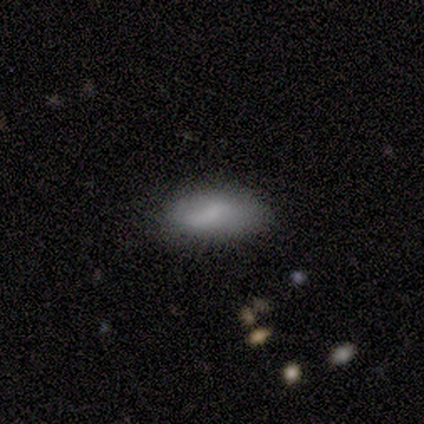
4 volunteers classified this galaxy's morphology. Volunteers were most divided on "merging" (2-way tie): none: 50%, minor disturbance: 50%, major disturbance: 0%, merger: 0%. More confident: how rounded — in between (100%); smooth or featured — smooth (75%).